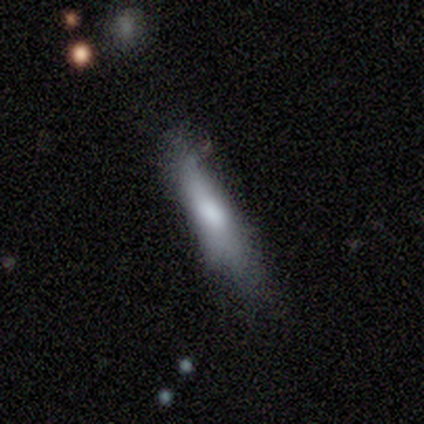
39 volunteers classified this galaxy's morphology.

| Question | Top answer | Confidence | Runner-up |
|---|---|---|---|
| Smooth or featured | smooth | 72% | featured or disk (26%) |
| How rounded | cigar-shaped | 93% | in between (7%) |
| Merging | minor disturbance | 45% | none (42%) |